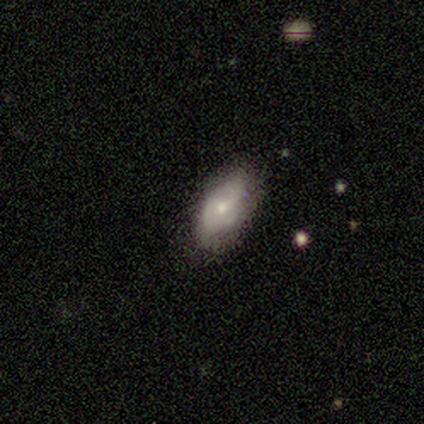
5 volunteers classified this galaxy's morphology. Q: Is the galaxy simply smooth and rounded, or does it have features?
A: featured or disk — 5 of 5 (100%).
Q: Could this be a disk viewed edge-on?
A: no — 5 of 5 (100%).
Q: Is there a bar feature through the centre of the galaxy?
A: no — 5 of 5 (100%).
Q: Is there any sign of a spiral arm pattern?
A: no — 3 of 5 (60%).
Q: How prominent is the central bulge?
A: small — 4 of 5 (80%).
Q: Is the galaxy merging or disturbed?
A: none — 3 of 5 (60%).